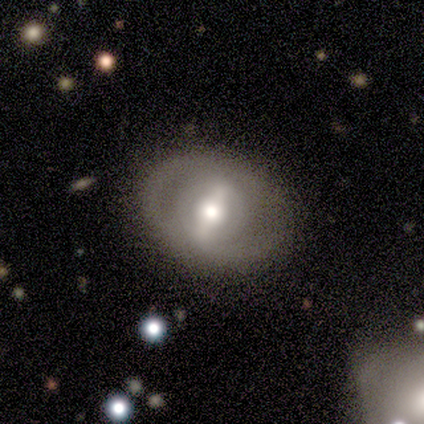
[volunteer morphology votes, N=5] A featured or disk galaxy (60%) with a strong bar (33%, tied with weak and no), no spiral arms (100%) and a moderate central bulge (100%).

Vote fractions:
- Smooth or featured? featured or disk: 60% / smooth: 40% / star or artifact: 0%
- Edge-on disk? no: 100% / yes: 0%
- Bar? strong: 33% (tied) / weak: 33% (tied) / no: 33% (tied)
- Spiral arms? no: 100% / yes: 0%
- Bulge size? moderate: 100% / dominant: 0% / large: 0% / small: 0% / none: 0%
- Merging? none: 100% / minor disturbance: 0% / major disturbance: 0% / merger: 0%